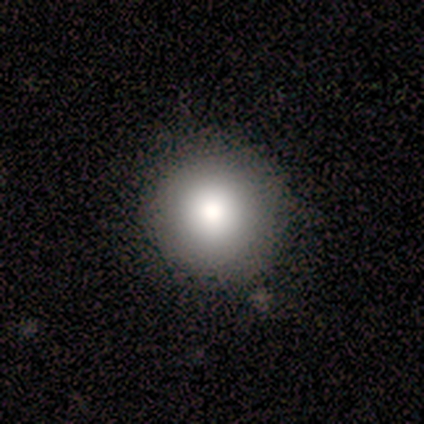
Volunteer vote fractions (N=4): This is clearly a smooth galaxy (100%). How rounded: clearly round (100%). Merging: clearly none (100%).